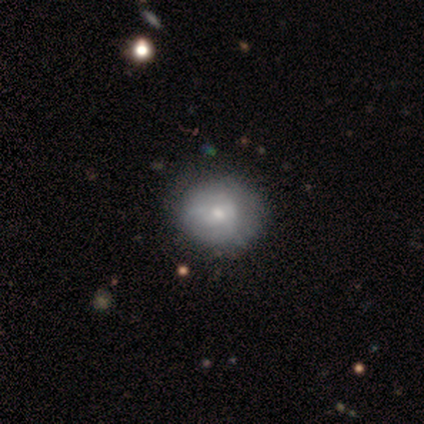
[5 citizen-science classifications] Morphology: type=smooth (40%, tied with featured or disk); roundness=round (100%); merging=none (50%, tied with minor disturbance).